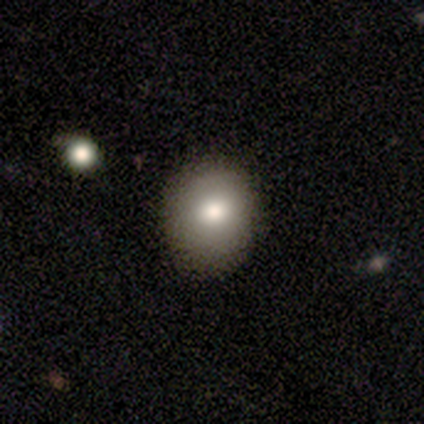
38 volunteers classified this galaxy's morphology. smooth 84%, featured or disk 13%, star or artifact 3%. Down the decision tree: how rounded — round (75%); merging — none (59%).